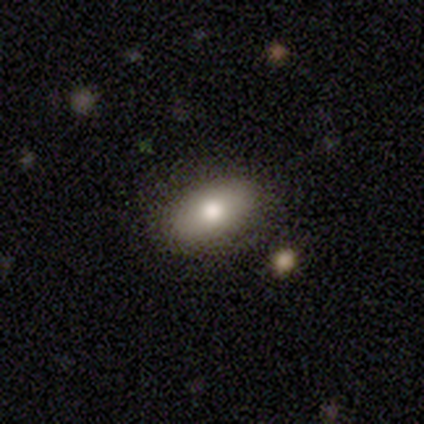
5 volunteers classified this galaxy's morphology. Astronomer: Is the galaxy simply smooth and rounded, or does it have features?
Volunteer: smooth — 80%.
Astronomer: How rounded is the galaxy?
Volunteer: in between — 75%.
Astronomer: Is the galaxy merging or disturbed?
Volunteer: none — 100%.